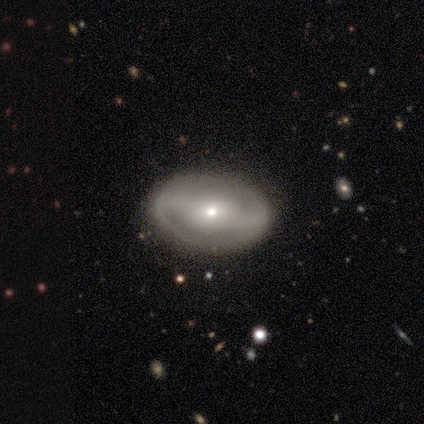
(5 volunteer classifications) Morphology: type=featured or disk (80%); edge-on=no (75%); bar=weak (67%); spiral arms=yes (100%); winding=tight (33%, tied with medium and loose); arm count=2 (100%); bulge=small (67%); merging=none (60%).